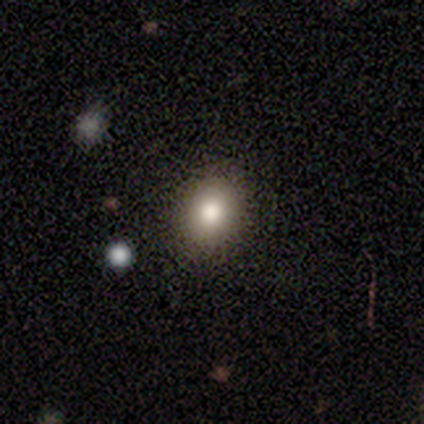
smooth_or_featured: smooth (p=1.00)
how_rounded: in between (p=0.60) [alt: round p=0.40]
merging: none (p=1.00)